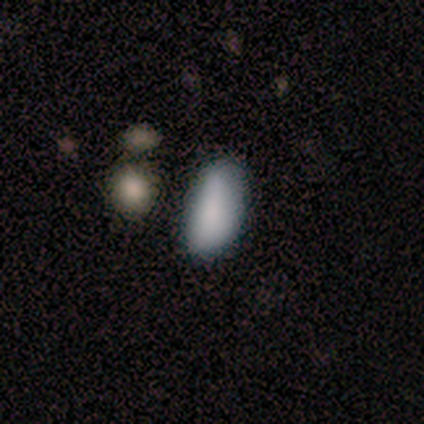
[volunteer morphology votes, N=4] Smooth or featured?
  - smooth: 100% *
  - featured or disk: 0%
  - star or artifact: 0%
How rounded?
  - in between: 100% *
  - round: 0%
  - cigar-shaped: 0%
Merging?
  - none: 50% *
  - minor disturbance: 25%
  - major disturbance: 25%
  - merger: 0%